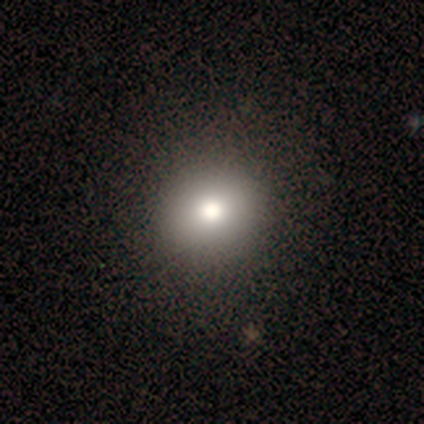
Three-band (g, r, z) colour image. It shows a smooth galaxy with no disk features (76%) that is round (100%). Merging: none (92%).